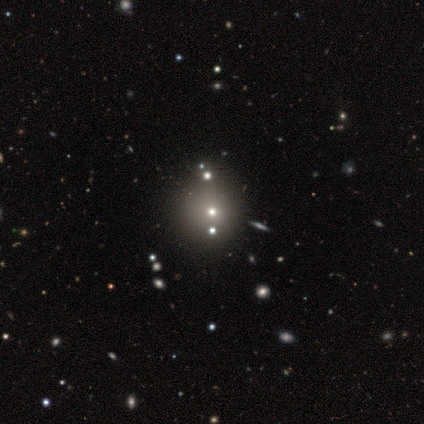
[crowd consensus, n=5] Q: Smooth or featured?
A: smooth (80%); runner-up: star or artifact (20%)
Q: How rounded?
A: round (50%); tied with: in between (50%)
Q: Merging?
A: none (50%); runner-up: minor disturbance (25%)